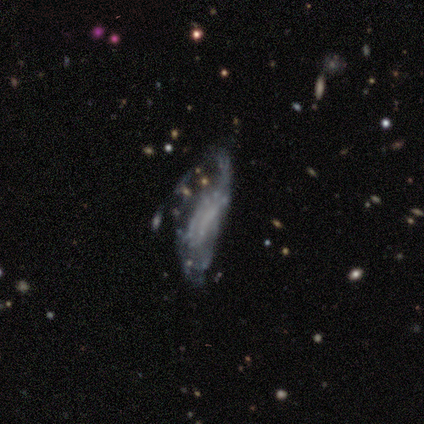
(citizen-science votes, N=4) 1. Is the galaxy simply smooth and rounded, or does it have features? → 75% smooth, 25% featured or disk, 0% star or artifact.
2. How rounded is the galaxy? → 100% in between, 0% round, 0% cigar-shaped.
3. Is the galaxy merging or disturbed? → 100% major disturbance, 0% none, 0% minor disturbance, 0% merger.